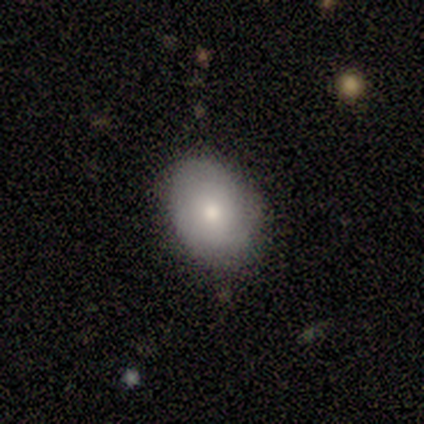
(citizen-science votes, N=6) Morphology: type=smooth (83%); roundness=in between (60%); merging=none (60%).